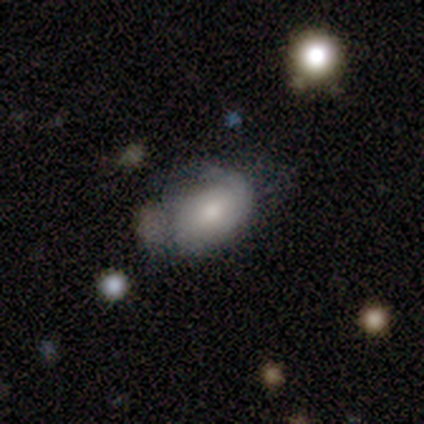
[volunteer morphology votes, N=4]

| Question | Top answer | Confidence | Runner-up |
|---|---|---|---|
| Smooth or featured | smooth | 50% | tied: featured or disk (50%) |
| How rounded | in between | 100% | — |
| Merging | none | 50% | tied: minor disturbance (50%) |